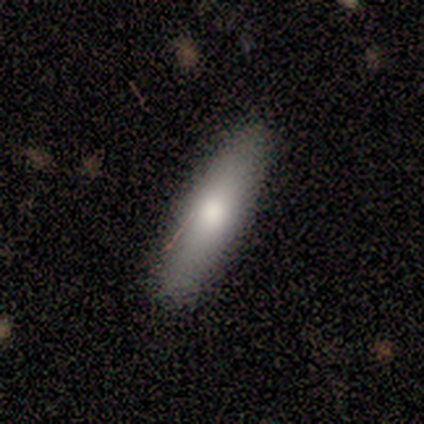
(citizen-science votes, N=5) This is likely a smooth galaxy (60%). How rounded: likely in between (67%). Merging: likely none (75%).